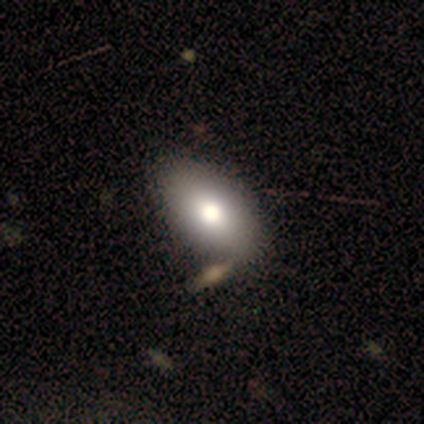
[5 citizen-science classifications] This appears to be a smooth galaxy with no disk features (100%) that is in between round and cigar-shaped (100%). Merging: none (80%).